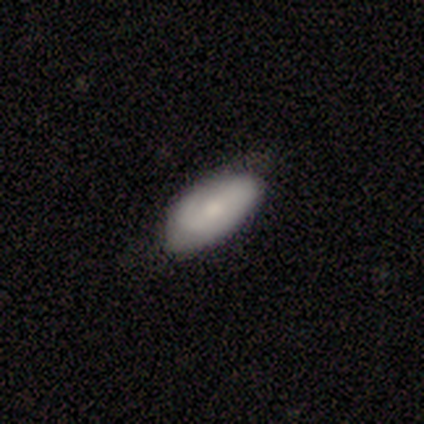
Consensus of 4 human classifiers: A star or artifact, not a galaxy (50%).

Vote fractions:
- Smooth or featured? star or artifact: 50% / smooth: 25% / featured or disk: 25%